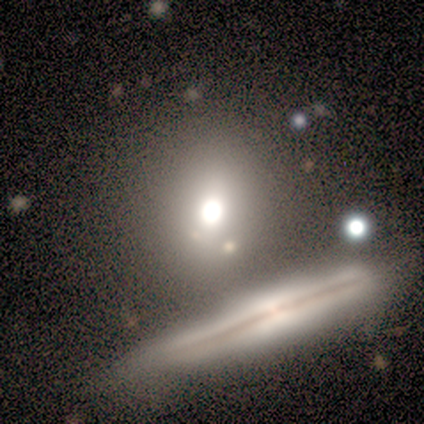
Q: Smooth or featured?
A: smooth (60%); runner-up: featured or disk (20%)
Q: How rounded?
A: in between (100%)
Q: Merging?
A: none (75%); runner-up: minor disturbance (25%)